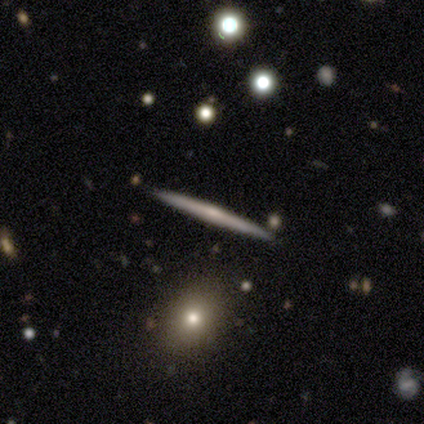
smooth_or_featured: featured or disk (p=0.79) [alt: smooth p=0.21]
disk_edge_on: yes (p=1.00)
edge_on_bulge: rounded (p=0.82) [alt: none p=0.18]
merging: none (p=0.93) [alt: minor disturbance p=0.07]